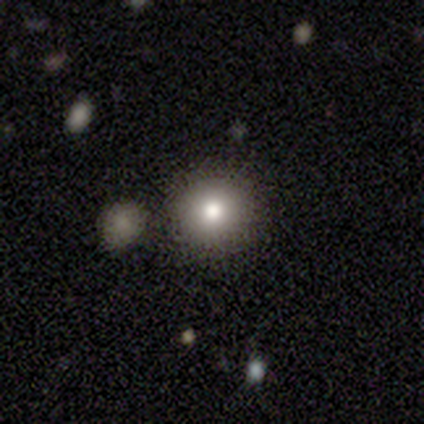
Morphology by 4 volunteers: smooth-or-featured: smooth: 100% | featured or disk: 0% | star or artifact: 0%
  how-rounded: round: 100% | in between: 0% | cigar-shaped: 0%
  merging: none: 75% | merger: 25% | minor disturbance: 0% | major disturbance: 0%